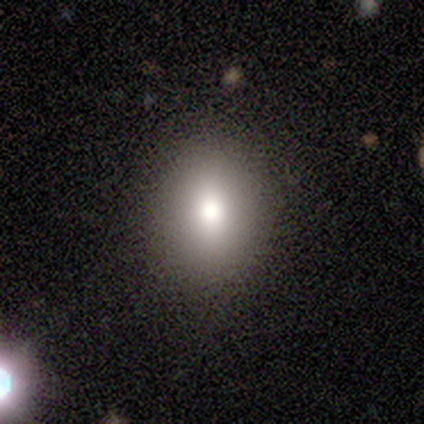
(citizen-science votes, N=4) Morphology: type=smooth (75%); roundness=round (67%); merging=none (100%).